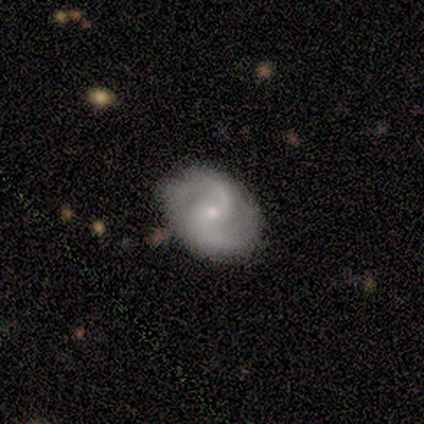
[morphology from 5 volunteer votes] featured or disk 80%, smooth 20%, star or artifact 0%. Down the decision tree: edge-on disk — no (100%); bar — no (75%); spiral arms — yes (100%); spiral arm count — 2 (100%); spiral winding — medium (50%, tied with loose); bulge size — small (75%); merging — none (60%).